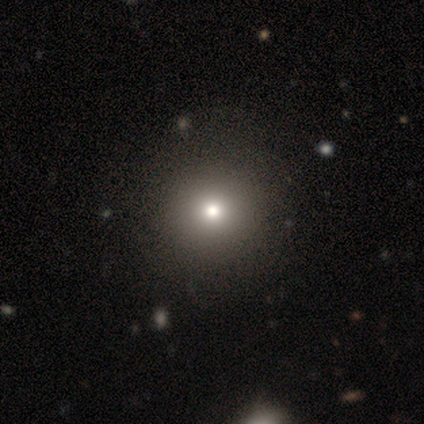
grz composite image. It shows a smooth galaxy with no disk features (75%) that is round (87%). Merging: none (75%).